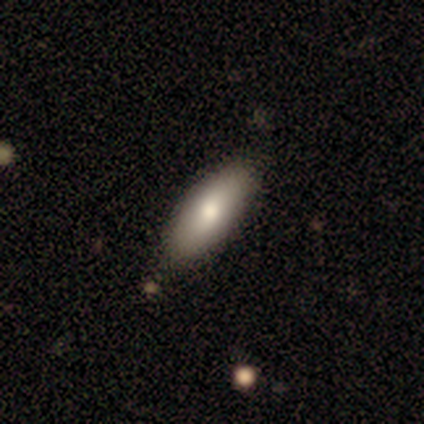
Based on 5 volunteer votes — smooth 80%, featured or disk 20%, star or artifact 0%. Down the decision tree: how rounded — in between (100%); merging — none (60%).